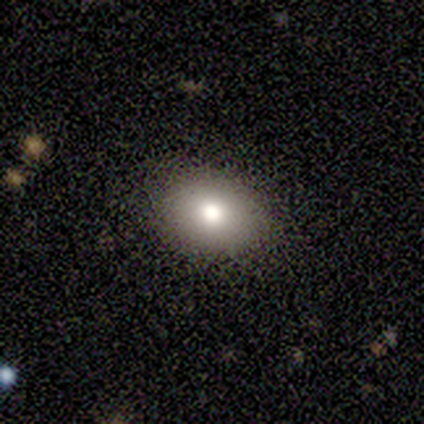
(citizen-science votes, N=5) A smooth galaxy with no disk features (80%) that is round (50%, tied with in between).

Vote fractions:
- Smooth or featured? smooth: 80% / star or artifact: 20% / featured or disk: 0%
- How rounded? round: 50% (tied) / in between: 50% (tied) / cigar-shaped: 0%
- Merging? none: 100% / minor disturbance: 0% / major disturbance: 0% / merger: 0%